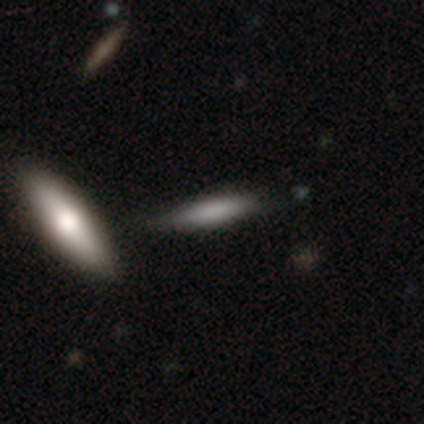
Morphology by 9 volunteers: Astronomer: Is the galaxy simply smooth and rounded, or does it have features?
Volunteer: smooth — 56% (runner-up: featured or disk, 44%).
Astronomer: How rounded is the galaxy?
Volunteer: cigar-shaped — 60% (runner-up: in between, 40%).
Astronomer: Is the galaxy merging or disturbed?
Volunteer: none — 89%.